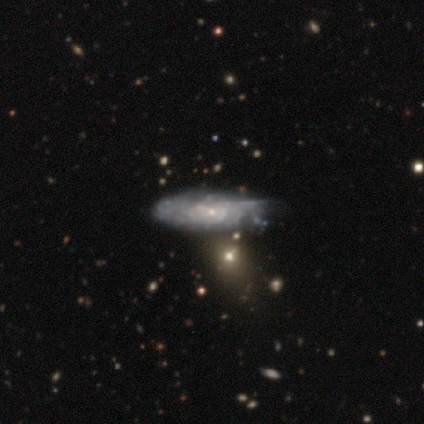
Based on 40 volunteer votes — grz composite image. It shows a featured or disk galaxy (72%) with no bar (88%), tight (86%) spiral arms (58%) and a small central bulge (83%). Merging: minor disturbance (34%).